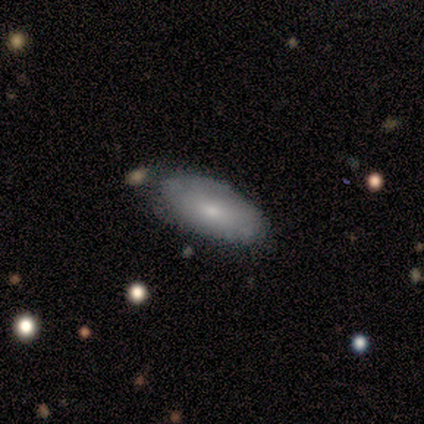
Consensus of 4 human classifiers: Smooth or featured? smooth (100%)
How rounded? in between (75%)
Merging? none (75%)